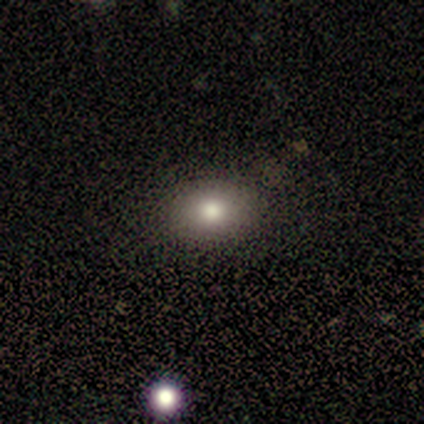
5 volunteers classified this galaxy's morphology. Smooth or featured? smooth (80%)
How rounded? in between (100%)
Merging? none (100%)